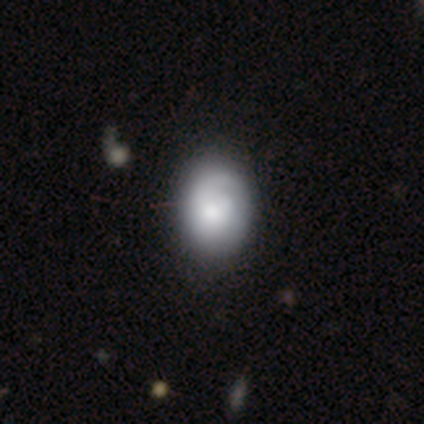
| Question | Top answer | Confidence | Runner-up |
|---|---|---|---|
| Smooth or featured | smooth | 52% | featured or disk (45%) |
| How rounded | in between | 52% | round (48%) |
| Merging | none | 46% | minor disturbance (13%) |